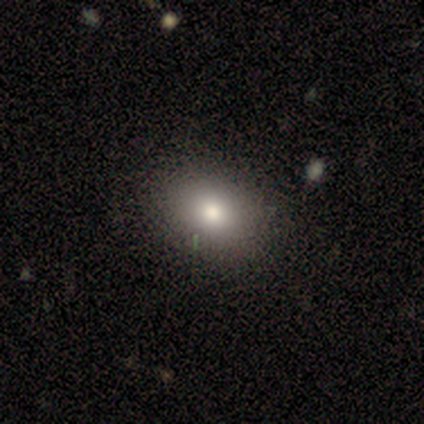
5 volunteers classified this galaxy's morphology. This is clearly a smooth galaxy (100%). How rounded: likely in between (60%). Merging: clearly none (100%).